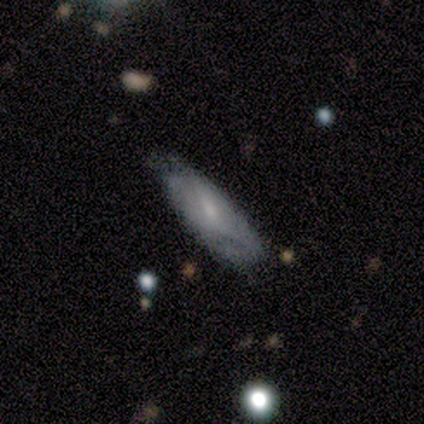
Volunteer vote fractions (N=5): featured or disk 60%, smooth 40%, star or artifact 0%. Down the decision tree: edge-on disk — no (67%); bar — no (100%); spiral arms — no (100%); bulge size — small (100%); merging — none (60%).